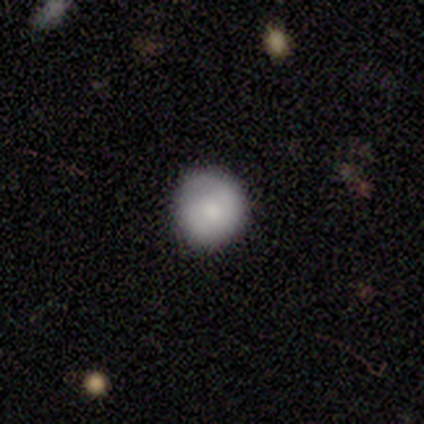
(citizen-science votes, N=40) Smooth or featured?
  - smooth: 60% *
  - featured or disk: 35%
  - star or artifact: 5%
How rounded?
  - round: 92% *
  - in between: 8%
  - cigar-shaped: 0%
Merging?
  - none: 58% *
  - major disturbance: 5%
  - minor disturbance: 3%
  - merger: 0%